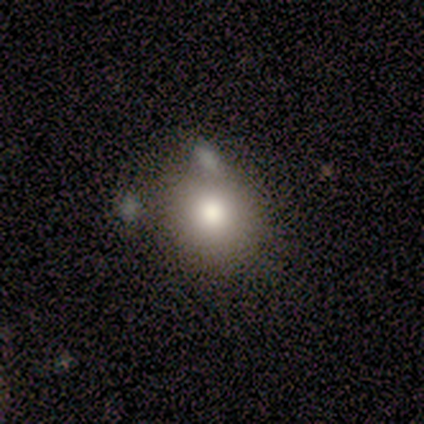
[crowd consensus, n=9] Smooth or featured: smooth — 78% (featured or disk — 11%)
How rounded: round — 100%
Merging: none — 50% (minor disturbance — 38%)